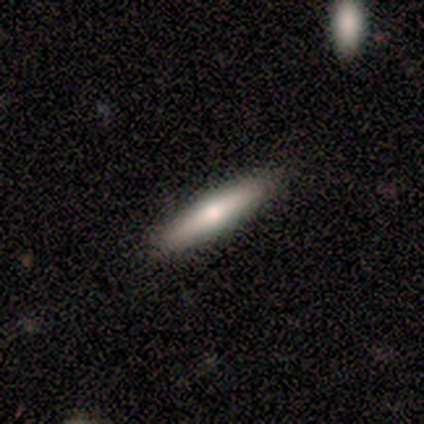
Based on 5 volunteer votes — Q: Smooth or featured?
A: smooth (80%); runner-up: featured or disk (20%)
Q: How rounded?
A: in between (50%); tied with: cigar-shaped (50%)
Q: Merging?
A: none (80%); runner-up: major disturbance (20%)